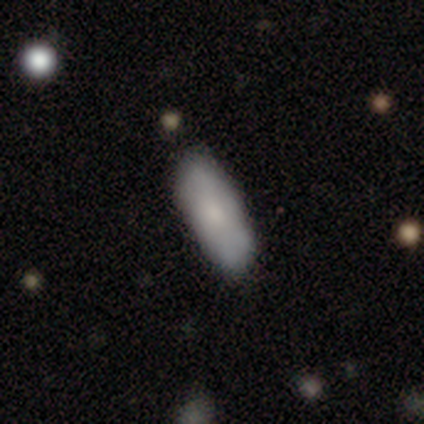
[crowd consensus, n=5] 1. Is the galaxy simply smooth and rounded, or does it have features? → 80% smooth, 20% featured or disk, 0% star or artifact.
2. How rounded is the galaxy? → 100% in between, 0% round, 0% cigar-shaped.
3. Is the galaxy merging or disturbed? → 80% none, 20% major disturbance, 0% minor disturbance, 0% merger.